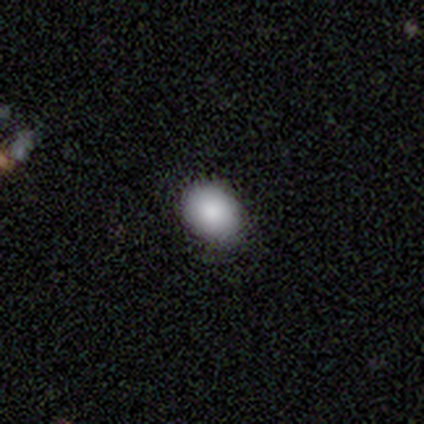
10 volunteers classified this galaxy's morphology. smooth_or_featured: smooth (p=0.90) [alt: star or artifact p=0.10]
how_rounded: in between (p=0.56) [alt: round p=0.44]
merging: none (p=0.89) [alt: minor disturbance p=0.11]